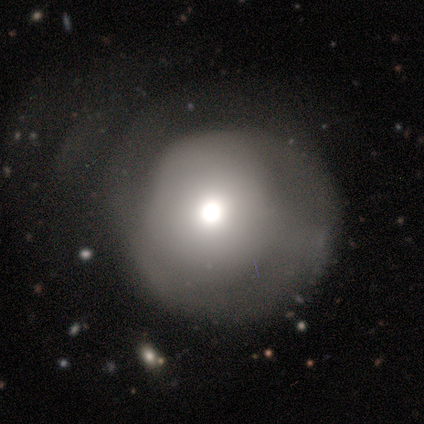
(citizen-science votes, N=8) Smooth or featured?
  - smooth: 62% *
  - featured or disk: 25%
  - star or artifact: 12%
How rounded?
  - round: 100% *
  - in between: 0%
  - cigar-shaped: 0%
Merging?
  - none: 57% *
  - minor disturbance: 29%
  - major disturbance: 14%
  - merger: 0%